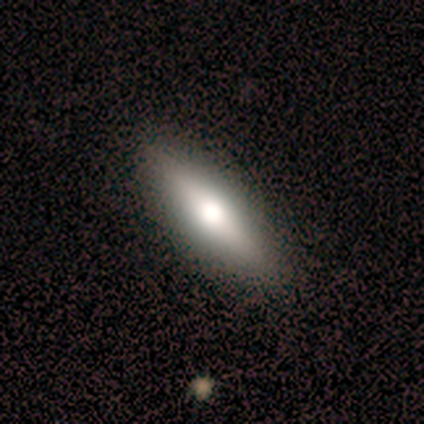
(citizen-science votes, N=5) A smooth galaxy with no disk features (80%) that is cigar-shaped (75%).

Vote fractions:
- Smooth or featured? smooth: 80% / featured or disk: 20% / star or artifact: 0%
- How rounded? cigar-shaped: 75% / in between: 25% / round: 0%
- Merging? none: 100% / minor disturbance: 0% / major disturbance: 0% / merger: 0%